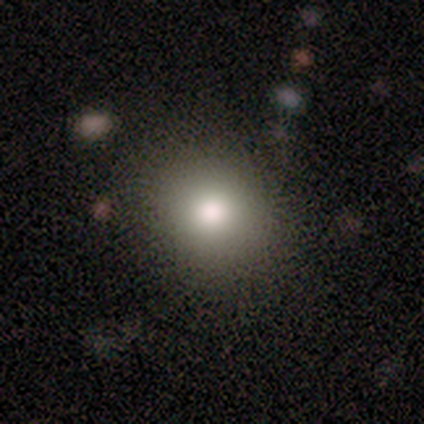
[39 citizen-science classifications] Morphology: type=smooth (79%); roundness=round (77%); merging=none (82%).